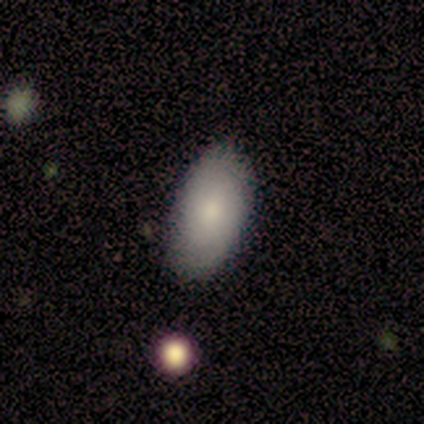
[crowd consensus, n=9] Volunteers were most divided on "smooth or featured": smooth: 67%, featured or disk: 33%, star or artifact: 0%. More confident: how rounded — in between (100%); merging — none (89%).